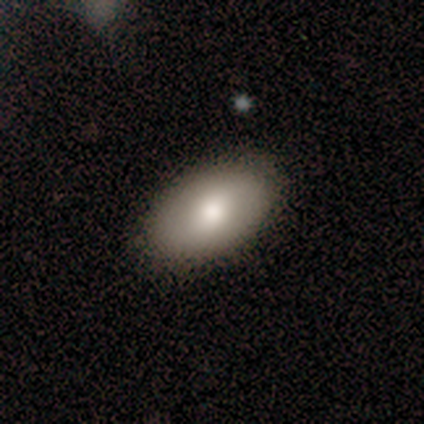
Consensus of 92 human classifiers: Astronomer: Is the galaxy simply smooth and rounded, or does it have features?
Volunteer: smooth — 75%.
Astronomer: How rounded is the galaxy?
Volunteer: in between — 99%.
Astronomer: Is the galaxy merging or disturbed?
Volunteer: none — 90%.